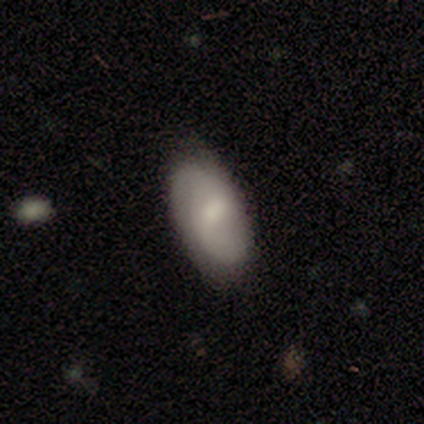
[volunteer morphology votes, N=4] This is possibly a smooth galaxy (50%, tied with featured or disk). How rounded: clearly in between (100%). Merging: likely none (75%).